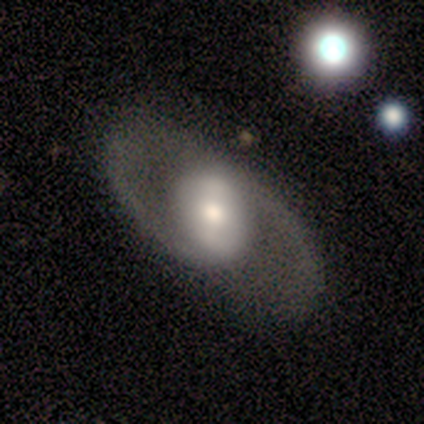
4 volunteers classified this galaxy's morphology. A featured or disk galaxy (75%) with no bar (67%), 2 (100%) medium (50%, tied with loose) spiral arms (67%) and a moderate central bulge (100%).

Vote fractions:
- Smooth or featured? featured or disk: 75% / smooth: 25% / star or artifact: 0%
- Edge-on disk? no: 100% / yes: 0%
- Bar? no: 67% / weak: 33% / strong: 0%
- Spiral arms? yes: 67% / no: 33%
- Spiral winding? medium: 50% (tied) / loose: 50% (tied) / tight: 0%
- Spiral arm count? 2: 100% / 1: 0% / 3: 0% / 4: 0% / more than 4: 0% / can't tell: 0%
- Bulge size? moderate: 100% / dominant: 0% / large: 0% / small: 0% / none: 0%
- Merging? none: 75% / minor disturbance: 25% / major disturbance: 0% / merger: 0%